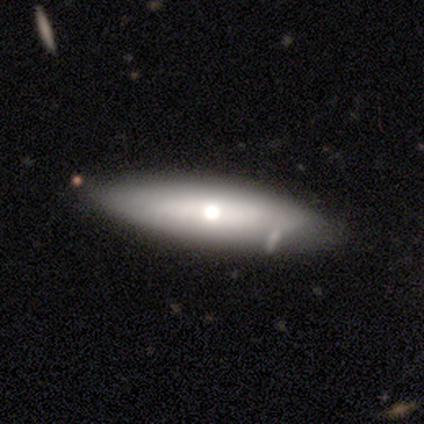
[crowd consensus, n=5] A smooth galaxy with no disk features (60%) that is in between round and cigar-shaped (67%). Merging: none (100%).